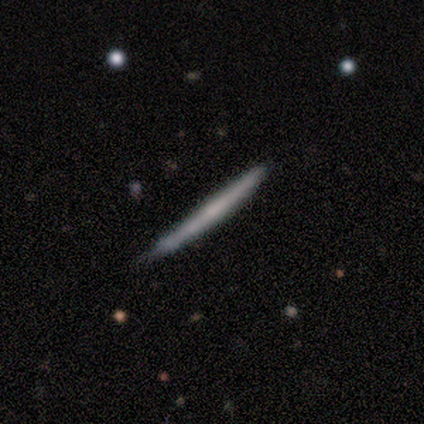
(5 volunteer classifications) Smooth or featured? featured or disk (60%)
Edge-on disk? yes (100%)
Edge-on bulge? none (100%)
Merging? none (60%)